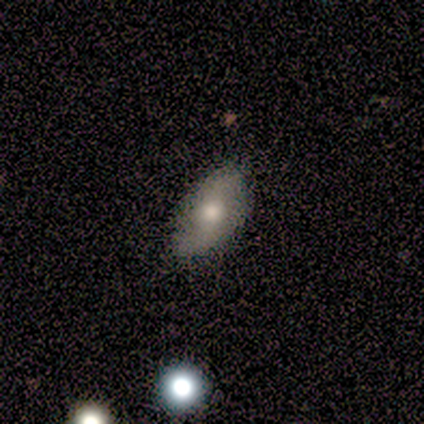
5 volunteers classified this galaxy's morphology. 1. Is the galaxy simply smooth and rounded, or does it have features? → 60% smooth, 40% featured or disk, 0% star or artifact.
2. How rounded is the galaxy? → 67% in between, 33% round, 0% cigar-shaped.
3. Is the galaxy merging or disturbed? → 100% none, 0% minor disturbance, 0% major disturbance, 0% merger.